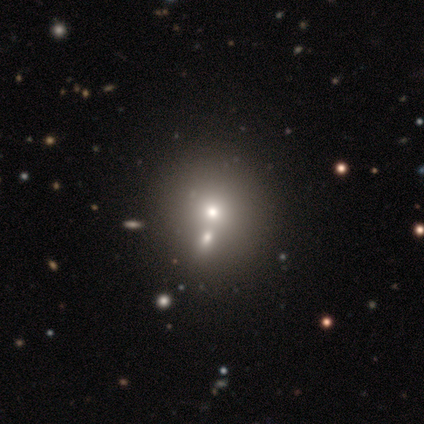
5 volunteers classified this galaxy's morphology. smooth-or-featured: smooth: 40% (tied) | featured or disk: 40% (tied) | star or artifact: 20%
  how-rounded: round: 50% (tied) | in between: 50% (tied) | cigar-shaped: 0%
  merging: merger: 75% | none: 25% | minor disturbance: 0% | major disturbance: 0%